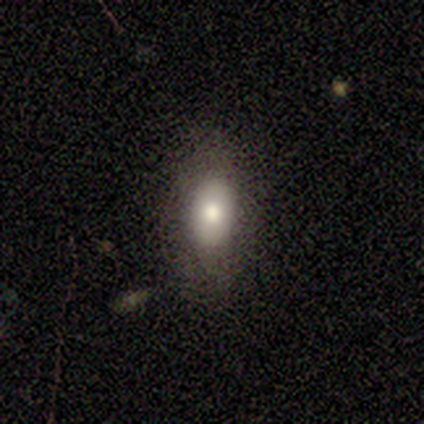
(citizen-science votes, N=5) A smooth galaxy with no disk features (80%) that is in between round and cigar-shaped (100%). Merging: none (80%).